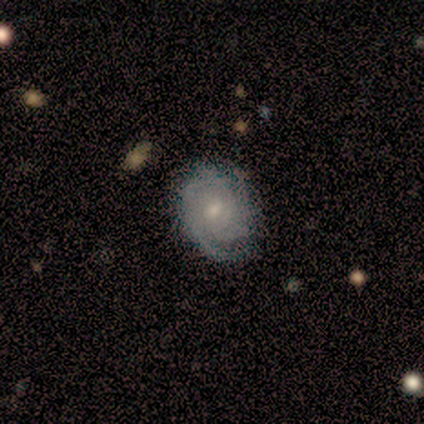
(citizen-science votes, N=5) A featured or disk galaxy (100%) with no bar (60%), 2 (50%) tight (75%) spiral arms (80%) and a moderate central bulge (60%).

Vote fractions:
- Smooth or featured? featured or disk: 100% / smooth: 0% / star or artifact: 0%
- Edge-on disk? no: 100% / yes: 0%
- Bar? no: 60% / weak: 40% / strong: 0%
- Spiral arms? yes: 80% / no: 20%
- Spiral winding? tight: 75% / medium: 25% / loose: 0%
- Spiral arm count? 2: 50% / 3: 25% / can't tell: 25% / 1: 0% / 4: 0% / more than 4: 0%
- Bulge size? moderate: 60% / small: 40% / dominant: 0% / large: 0% / none: 0%
- Merging? none: 60% / minor disturbance: 20% / major disturbance: 20% / merger: 0%